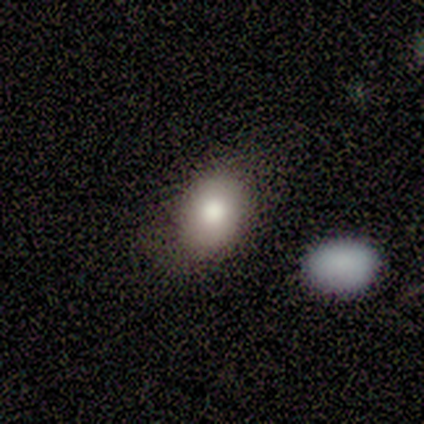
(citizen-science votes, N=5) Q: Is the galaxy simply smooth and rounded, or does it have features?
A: smooth — 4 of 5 (80%).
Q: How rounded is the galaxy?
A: round — 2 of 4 (50%, tied with in between).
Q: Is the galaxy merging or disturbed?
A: none — 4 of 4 (100%).